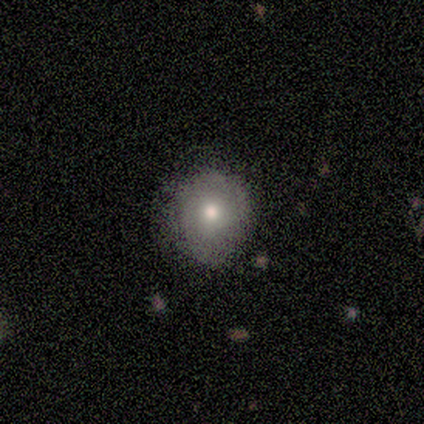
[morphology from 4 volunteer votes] smooth-or-featured: smooth: 100% | featured or disk: 0% | star or artifact: 0%
  how-rounded: round: 100% | in between: 0% | cigar-shaped: 0%
  merging: none: 100% | minor disturbance: 0% | major disturbance: 0% | merger: 0%